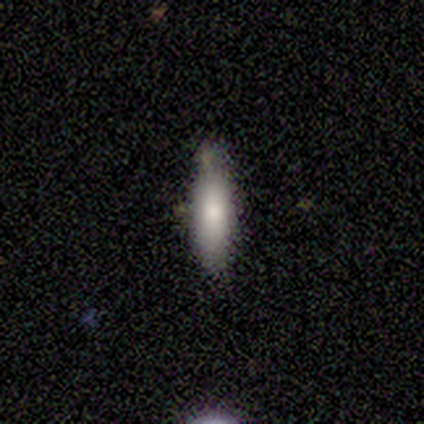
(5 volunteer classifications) Smooth or featured?
  - smooth: 80% *
  - featured or disk: 20%
  - star or artifact: 0%
How rounded?
  - in between: 50% * (tied)
  - cigar-shaped: 50% * (tied)
  - round: 0%
Merging?
  - none: 80% *
  - minor disturbance: 20%
  - major disturbance: 0%
  - merger: 0%